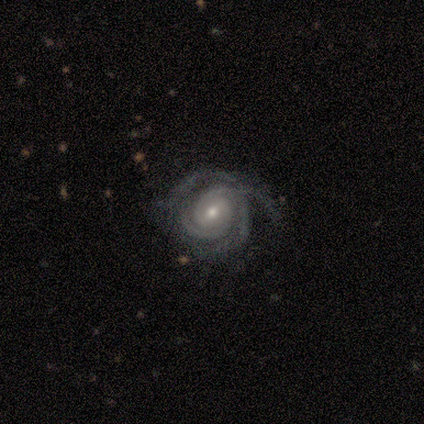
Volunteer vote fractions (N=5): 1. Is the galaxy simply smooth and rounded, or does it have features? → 100% featured or disk, 0% smooth, 0% star or artifact.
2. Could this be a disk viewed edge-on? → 100% no, 0% yes.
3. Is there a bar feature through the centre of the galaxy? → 60% no, 40% weak, 0% strong.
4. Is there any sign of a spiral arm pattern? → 100% yes, 0% no.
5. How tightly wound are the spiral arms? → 60% tight, 20% medium, 20% loose.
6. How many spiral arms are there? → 40% 2, 20% 3, 20% more than 4, 20% can't tell, 0% 1, 0% 4.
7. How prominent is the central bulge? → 60% moderate, 40% small, 0% dominant, 0% large, 0% none.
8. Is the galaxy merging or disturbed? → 80% none, 20% major disturbance, 0% minor disturbance, 0% merger.